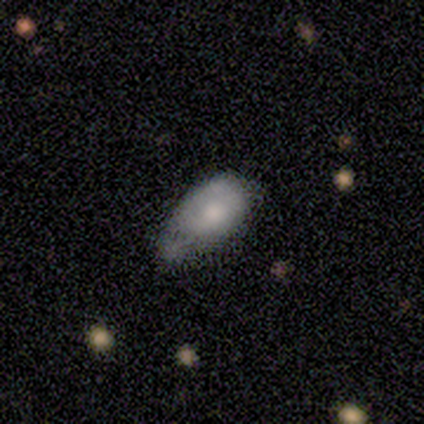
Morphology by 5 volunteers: A smooth galaxy with no disk features (60%) that is in between round and cigar-shaped (67%). Merging: minor disturbance (60%).